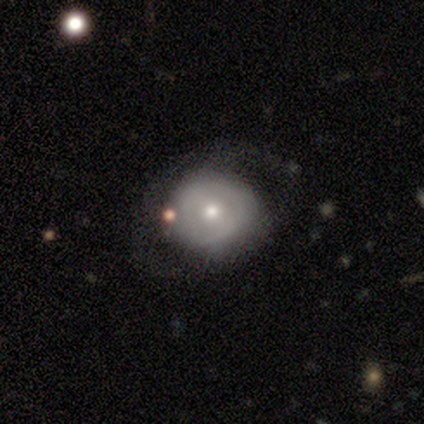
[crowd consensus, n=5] This is clearly a featured or disk galaxy (80%). It is clearly not viewed edge-on (100%). Bar: possibly weak (50%, tied with no). Spiral arm pattern: possibly yes (50%, tied with no). Spiral arm count: clearly 2 (100%). Spiral winding: possibly tight (50%, tied with medium). Central bulge: possibly moderate (50%, tied with small). Merging: clearly none (80%).